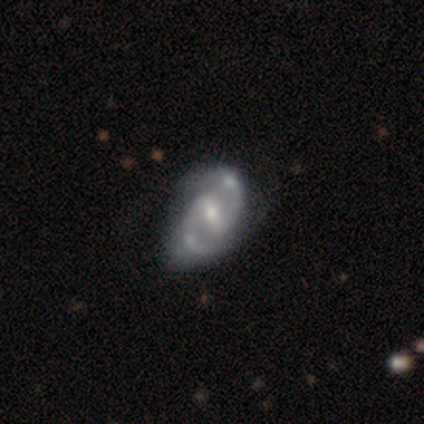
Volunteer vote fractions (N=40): featured or disk 98%, smooth 2%, star or artifact 0%. Down the decision tree: edge-on disk — no (97%); bar — weak (55%); spiral arms — yes (97%); spiral arm count — 2 (97%); spiral winding — medium (62%); bulge size — moderate (55%); merging — none (48%).